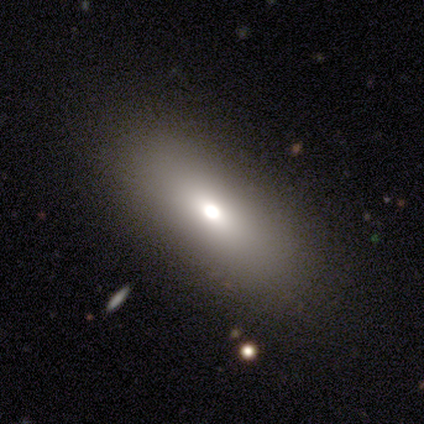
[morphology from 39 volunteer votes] Smooth or featured? 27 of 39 (69%) said smooth. How rounded? 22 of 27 (81%) said in between. Merging? 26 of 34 (76%) said none.